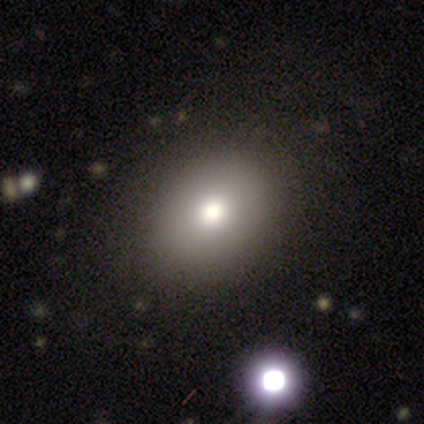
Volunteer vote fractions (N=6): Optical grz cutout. It shows a smooth galaxy with no disk features (83%) that is in between round and cigar-shaped (60%). Merging: none (83%).